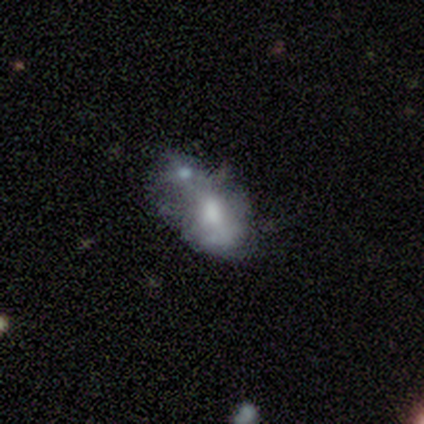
Volunteers were most divided on "smooth or featured": featured or disk: 60%, smooth: 40%, star or artifact: 0%. More confident: edge-on disk — no (100%); spiral arms — no (100%); bulge size — moderate (100%); merging — merger (80%); bar — no (67%).